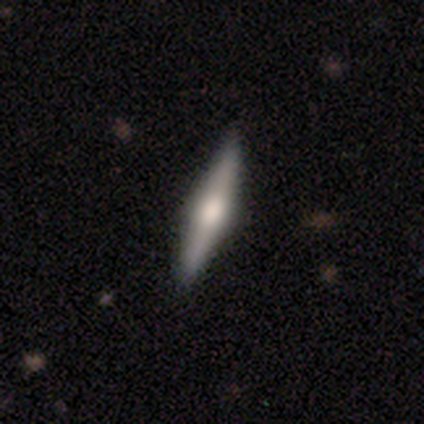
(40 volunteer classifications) Volunteers were most divided on "smooth or featured": featured or disk: 72%, smooth: 28%, star or artifact: 0%. More confident: edge-on disk — yes (93%); edge-on bulge — rounded (78%); merging — none (62%).